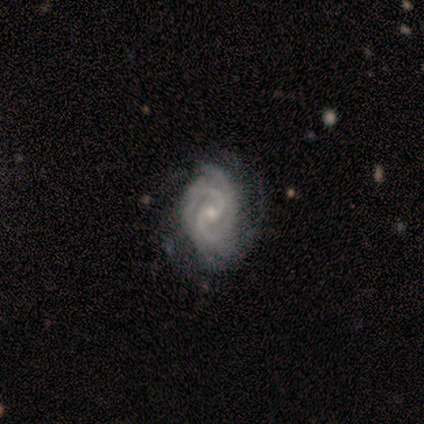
This is clearly a featured or disk galaxy (100%). It is clearly not viewed edge-on (100%). Bar: possibly weak (50%). Spiral arm pattern: clearly yes (100%). Spiral arm count: likely 2 (75%). Spiral winding: likely tight (75%). Central bulge: clearly small (100%). Merging: possibly major disturbance (50%).